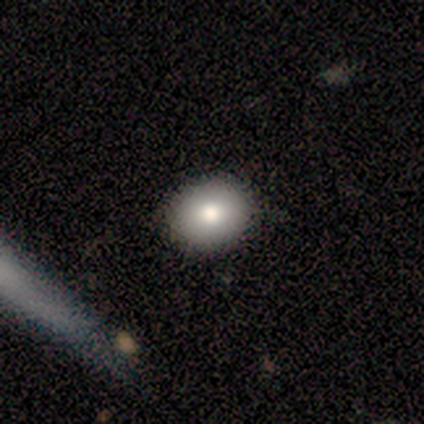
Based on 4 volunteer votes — Volunteers were most divided on "smooth or featured": smooth: 75%, star or artifact: 25%, featured or disk: 0%. More confident: how rounded — round (100%); merging — none (100%).